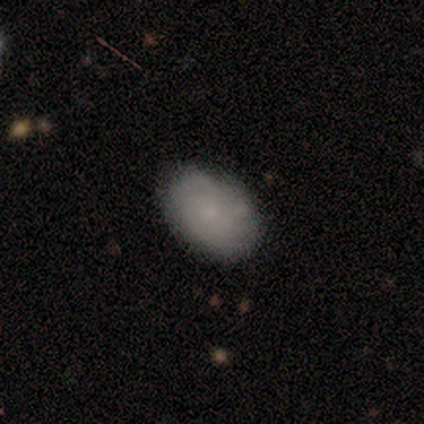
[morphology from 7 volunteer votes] type=smooth (43%, tied with featured or disk); roundness=in between (67%); merging=none (50%).